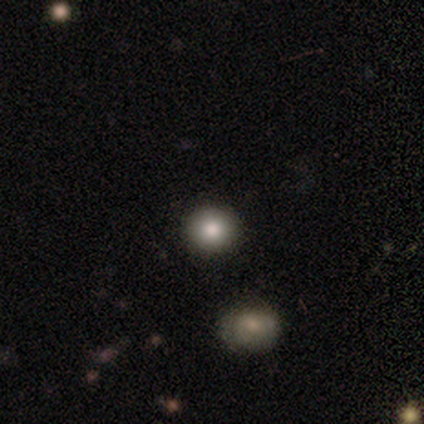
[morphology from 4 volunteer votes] Q: Smooth or featured?
A: smooth (100%)
Q: How rounded?
A: round (100%)
Q: Merging?
A: none (100%)